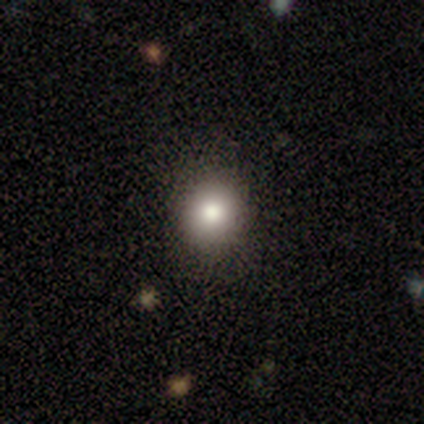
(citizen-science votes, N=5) smooth-or-featured: smooth: 100% | featured or disk: 0% | star or artifact: 0%
  how-rounded: round: 60% | in between: 40% | cigar-shaped: 0%
  merging: none: 80% | minor disturbance: 20% | major disturbance: 0% | merger: 0%